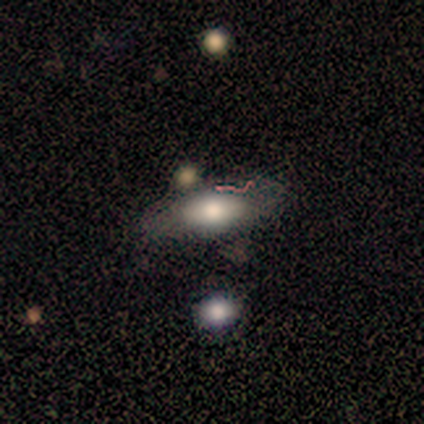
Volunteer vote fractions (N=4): Smooth or featured? smooth (75%)
How rounded? in between (67%)
Merging? none (100%)